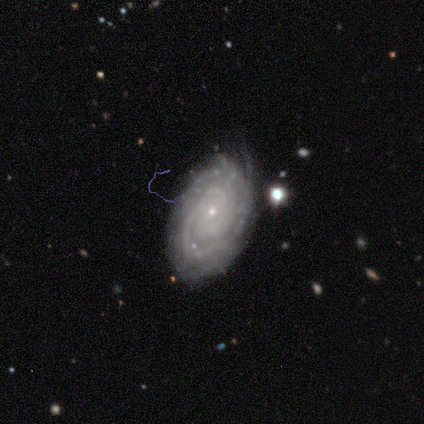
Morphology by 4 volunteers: type=featured or disk (100%); edge-on=no (100%); bar=no (100%); spiral arms=yes (100%); winding=tight (100%); arm count=can't tell (50%); bulge=small (100%); merging=none (50%, tied with minor disturbance).